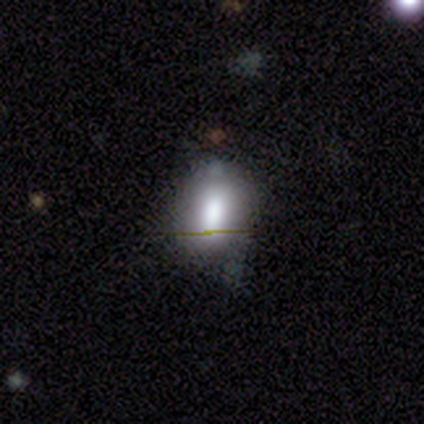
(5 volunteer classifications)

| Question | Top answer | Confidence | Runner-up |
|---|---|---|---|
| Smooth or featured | smooth | 100% | — |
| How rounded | in between | 80% | round (20%) |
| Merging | none | 80% | minor disturbance (20%) |